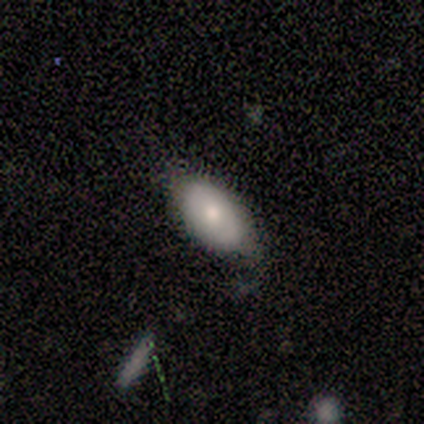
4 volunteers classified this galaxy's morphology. smooth_or_featured: smooth (p=0.50) [tied with: featured or disk p=0.50]
how_rounded: in between (p=1.00)
merging: none (p=0.75) [alt: minor disturbance p=0.25]